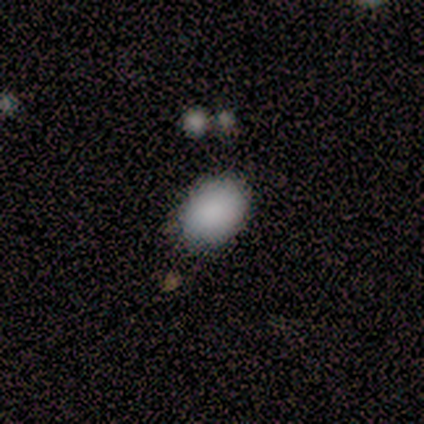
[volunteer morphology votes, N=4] Smooth or featured: smooth — 75% (featured or disk — 25%)
How rounded: in between — 100%
Merging: none — 100%